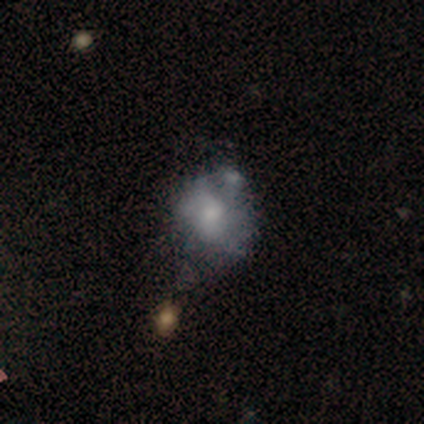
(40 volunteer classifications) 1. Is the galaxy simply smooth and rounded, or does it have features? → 50% featured or disk, 42% smooth, 8% star or artifact.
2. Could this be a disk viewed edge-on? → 95% no, 5% yes.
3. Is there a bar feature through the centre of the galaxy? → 95% no, 5% weak, 0% strong.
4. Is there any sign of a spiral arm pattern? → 68% no, 32% yes.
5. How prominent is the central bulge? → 58% small, 32% moderate, 11% none, 0% dominant, 0% large.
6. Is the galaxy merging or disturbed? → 35% none, 32% minor disturbance, 22% major disturbance, 11% merger.